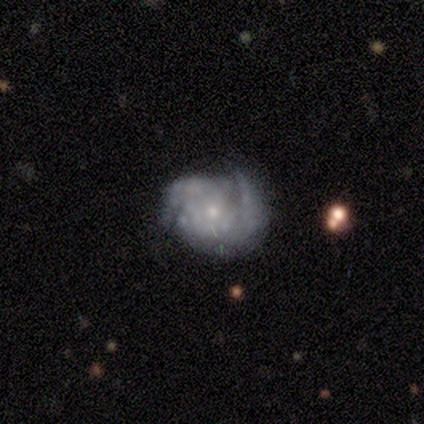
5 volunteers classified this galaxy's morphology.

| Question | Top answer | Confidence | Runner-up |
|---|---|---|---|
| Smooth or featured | featured or disk | 80% | smooth (20%) |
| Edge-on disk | no | 100% | — |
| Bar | no | 75% | weak (25%) |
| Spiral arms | yes | 75% | no (25%) |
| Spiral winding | medium | 67% | tight (33%) |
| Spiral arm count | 2 | 33% | tied: 3 (33%), can't tell (33%) |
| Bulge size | moderate | 50% | tied: small (50%) |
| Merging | none | 40% | tied: major disturbance (40%) |